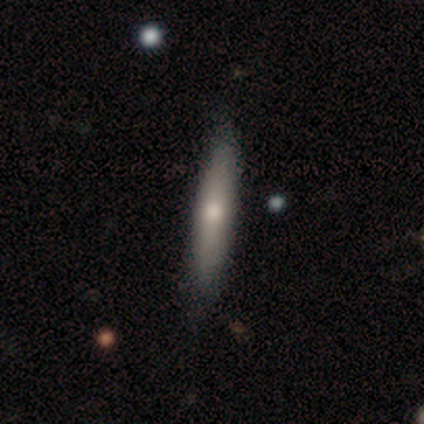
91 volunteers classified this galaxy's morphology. This appears to be a smooth galaxy with no disk features (56%) that is cigar-shaped (82%). Merging: none (83%).